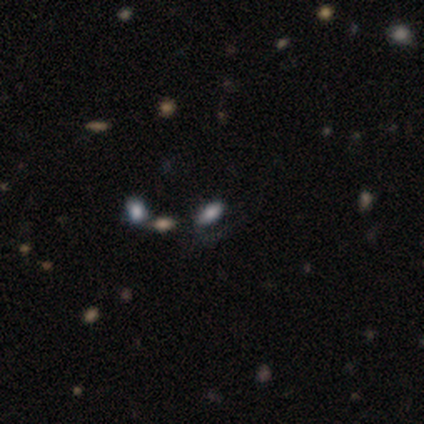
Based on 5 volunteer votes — Overall: smooth (80%). How rounded: in between (100%). Merging: none (75%).